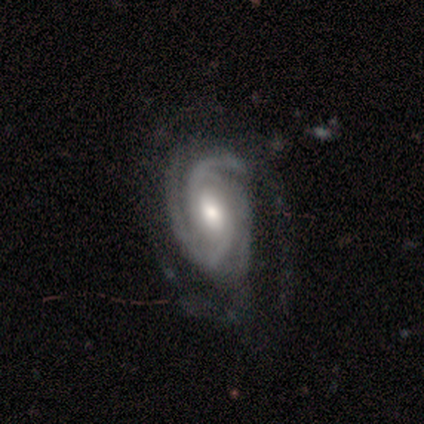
Morphology: type=featured or disk (100%); edge-on=no (100%); bar=weak (40%, tied with no); spiral arms=yes (100%); winding=tight (60%); arm count=3 (80%); bulge=moderate (60%); merging=none (60%).